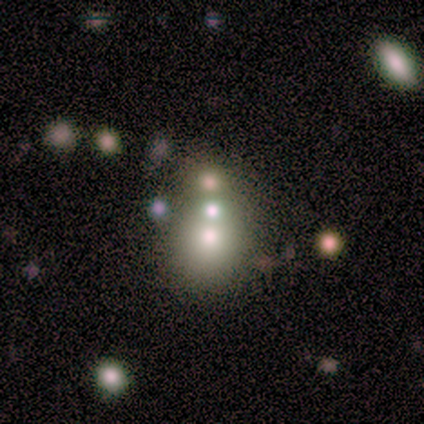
Q: Smooth or featured?
A: smooth (80%); runner-up: featured or disk (20%)
Q: How rounded?
A: round (75%); runner-up: cigar-shaped (25%)
Q: Merging?
A: merger (60%); runner-up: none (40%)